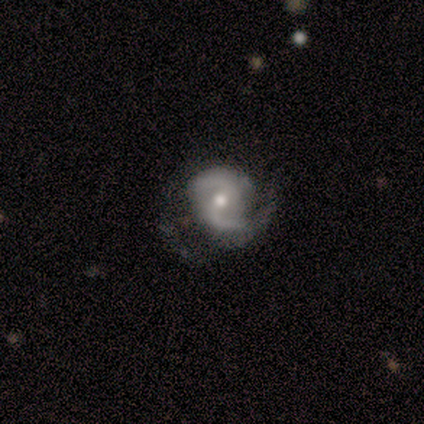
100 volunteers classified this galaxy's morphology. Overall: featured or disk (89%). Edge-on disk: no (99%). Bar: weak (45%; no 42%). Spiral arms: yes (99%). Spiral arm count: 2 (93%). Spiral winding: medium (56%; loose 25%). Bulge size: moderate (72%). Merging: none (47%; major disturbance 29%).